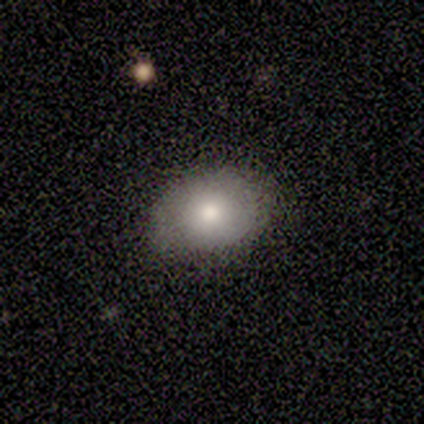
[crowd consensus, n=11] Smooth or featured? smooth (82%)
How rounded? in between (78%)
Merging? none (91%)